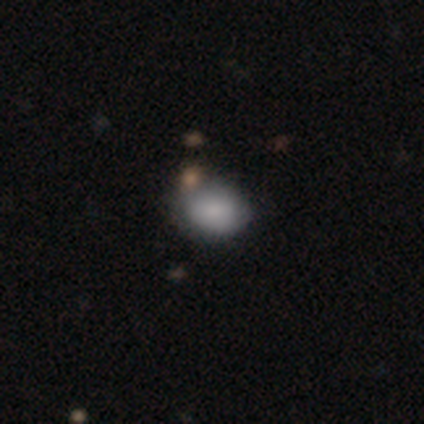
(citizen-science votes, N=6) A smooth galaxy with no disk features (67%) that is in between round and cigar-shaped (75%). Merging: none (50%).